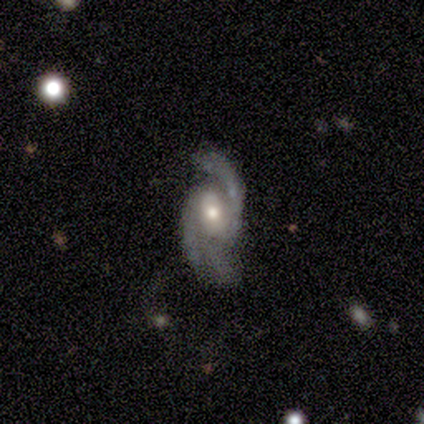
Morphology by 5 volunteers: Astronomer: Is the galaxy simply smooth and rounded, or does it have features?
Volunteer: featured or disk — 80%.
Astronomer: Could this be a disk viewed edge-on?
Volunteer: no — 100%.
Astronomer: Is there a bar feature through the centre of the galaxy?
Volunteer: weak — 50%.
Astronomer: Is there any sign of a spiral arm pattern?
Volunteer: yes — 100%.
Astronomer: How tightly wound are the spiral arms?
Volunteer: loose — 50%.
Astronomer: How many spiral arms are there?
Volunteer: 2 — 50%.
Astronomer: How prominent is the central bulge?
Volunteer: moderate — 50%.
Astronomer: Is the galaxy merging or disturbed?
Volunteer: none — 75%.